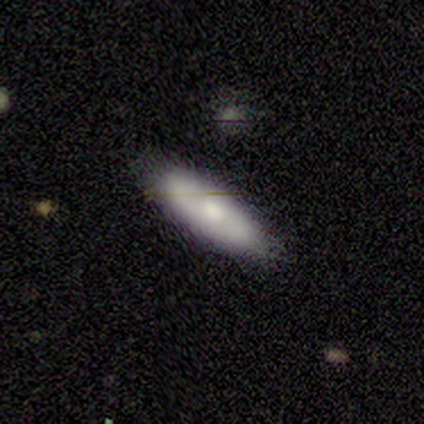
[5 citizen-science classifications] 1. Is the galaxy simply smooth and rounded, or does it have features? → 40% smooth (tied), 40% featured or disk (tied), 20% star or artifact.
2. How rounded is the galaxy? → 50% round (tied), 50% in between (tied), 0% cigar-shaped.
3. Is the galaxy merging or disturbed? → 75% none, 25% merger, 0% minor disturbance, 0% major disturbance.